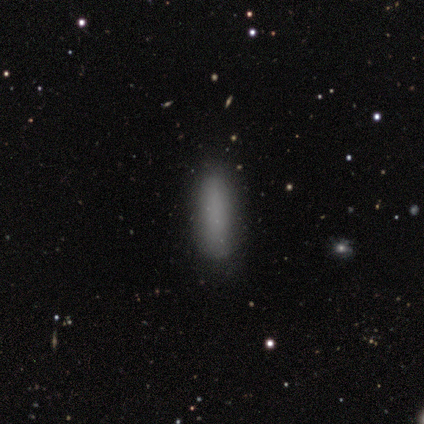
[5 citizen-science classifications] Volunteers were most divided on "how rounded" (2-way tie): in between: 50%, cigar-shaped: 50%, round: 0%. More confident: merging — none (100%); smooth or featured — smooth (80%).